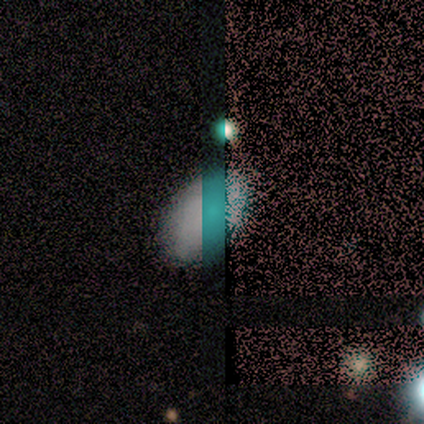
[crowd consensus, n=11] A star or artifact, not a galaxy (45%).

Vote fractions:
- Smooth or featured? star or artifact: 45% / smooth: 36% / featured or disk: 18%